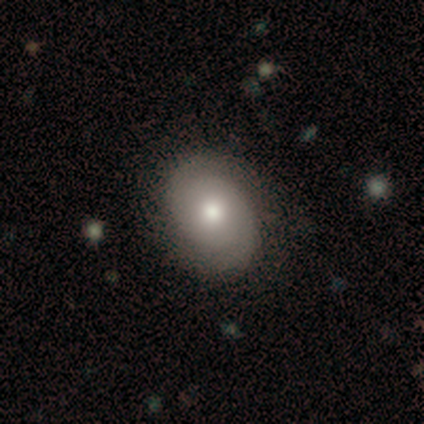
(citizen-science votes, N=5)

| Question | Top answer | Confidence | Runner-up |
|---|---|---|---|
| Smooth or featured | smooth | 40% | tied: featured or disk (40%) |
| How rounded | round | 50% | tied: in between (50%) |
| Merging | none | 100% | — |